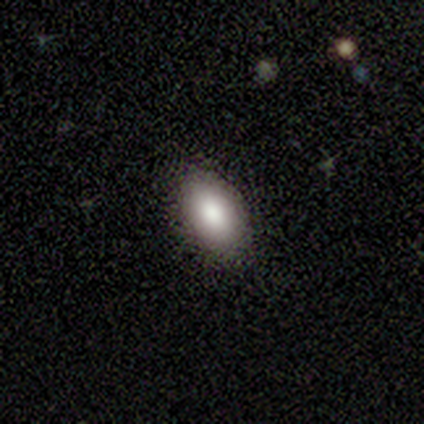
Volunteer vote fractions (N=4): Smooth or featured? 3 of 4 (75%) said smooth. How rounded? 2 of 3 (67%) said in between. Merging? 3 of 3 (100%) said none.